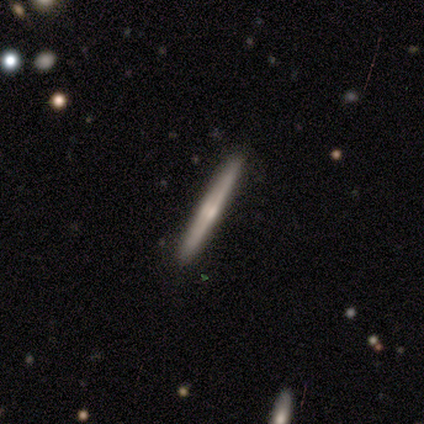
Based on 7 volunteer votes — Q: Smooth or featured?
A: featured or disk (86%); runner-up: smooth (14%)
Q: Edge-on disk?
A: yes (100%)
Q: Edge-on bulge?
A: rounded (67%); runner-up: none (33%)
Q: Merging?
A: none (71%); runner-up: minor disturbance (29%)